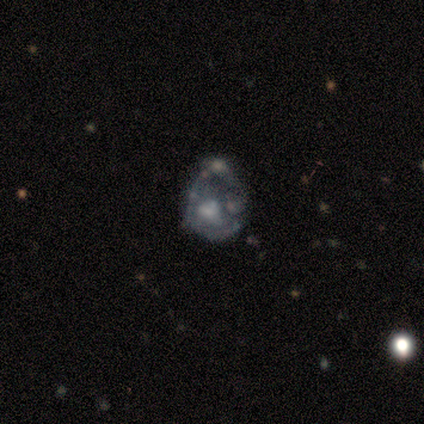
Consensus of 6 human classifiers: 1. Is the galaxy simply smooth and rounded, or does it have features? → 100% featured or disk, 0% smooth, 0% star or artifact.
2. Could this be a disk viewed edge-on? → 100% no, 0% yes.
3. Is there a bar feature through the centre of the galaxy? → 83% no, 17% weak, 0% strong.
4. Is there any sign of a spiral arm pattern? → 83% no, 17% yes.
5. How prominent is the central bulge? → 50% none, 33% large, 17% moderate, 0% dominant, 0% small.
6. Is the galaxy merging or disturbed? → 50% major disturbance (tied), 50% merger (tied), 0% none, 0% minor disturbance.